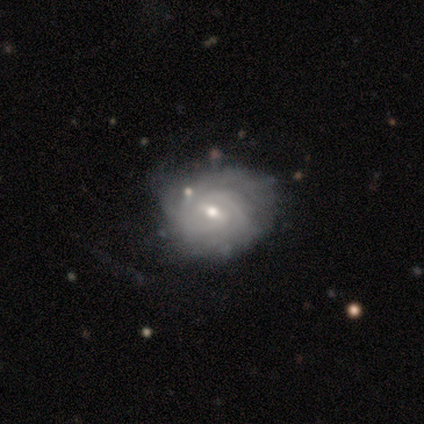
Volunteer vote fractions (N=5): This appears to be a featured or disk galaxy (100%) with a weak bar (100%), 2 (40%, tied with can't tell) tight (80%) spiral arms (100%) and a small central bulge (100%). Merging: none (60%).